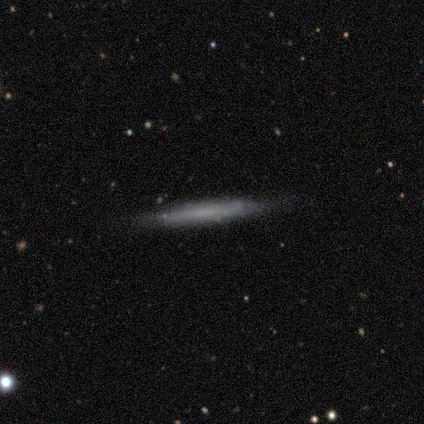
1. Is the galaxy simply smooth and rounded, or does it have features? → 100% smooth, 0% featured or disk, 0% star or artifact.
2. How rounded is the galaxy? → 100% cigar-shaped, 0% round, 0% in between.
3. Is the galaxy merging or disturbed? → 100% none, 0% minor disturbance, 0% major disturbance, 0% merger.